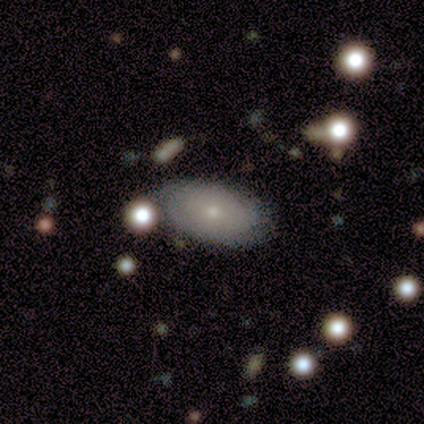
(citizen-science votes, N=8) smooth 75%, featured or disk 25%, star or artifact 0%. Down the decision tree: how rounded — in between (100%); merging — none (62%).